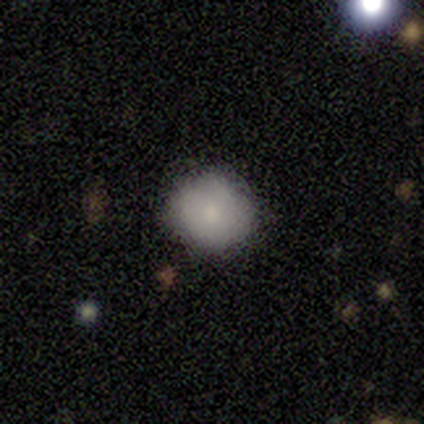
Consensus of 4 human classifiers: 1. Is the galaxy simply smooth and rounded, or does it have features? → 75% smooth, 25% featured or disk, 0% star or artifact.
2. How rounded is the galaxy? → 100% round, 0% in between, 0% cigar-shaped.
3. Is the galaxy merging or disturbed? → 75% none, 25% minor disturbance, 0% major disturbance, 0% merger.